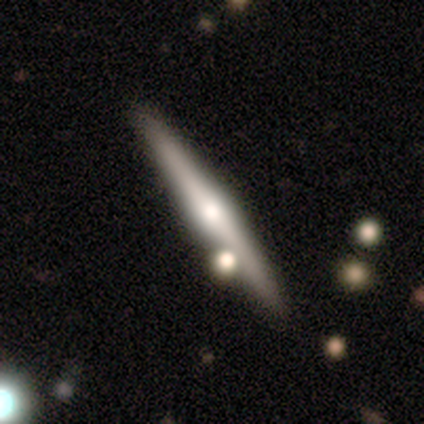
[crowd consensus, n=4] Volunteers were most divided on "smooth or featured" (2-way tie): smooth: 50%, featured or disk: 50%, star or artifact: 0%. More confident: how rounded — cigar-shaped (100%); merging — none (100%).